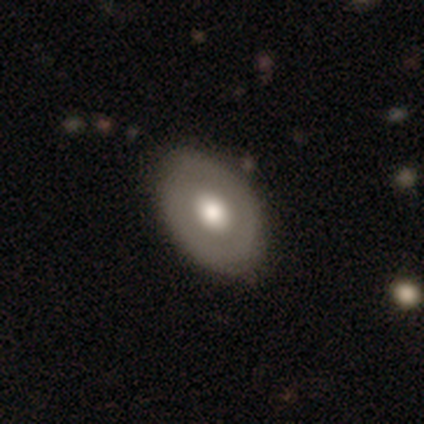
Smooth or featured? featured or disk (50%)
Edge-on disk? no (90%)
Bar? no (83%)
Spiral arms? no (89%)
Bulge size? large (61%)
Merging? none (74%)